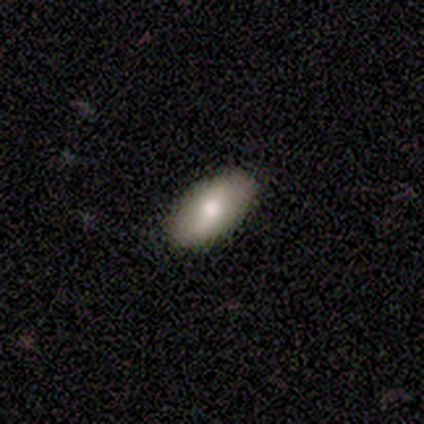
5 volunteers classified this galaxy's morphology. Smooth or featured?
  - smooth: 60% *
  - featured or disk: 20%
  - star or artifact: 20%
How rounded?
  - in between: 100% *
  - round: 0%
  - cigar-shaped: 0%
Merging?
  - none: 100% *
  - minor disturbance: 0%
  - major disturbance: 0%
  - merger: 0%